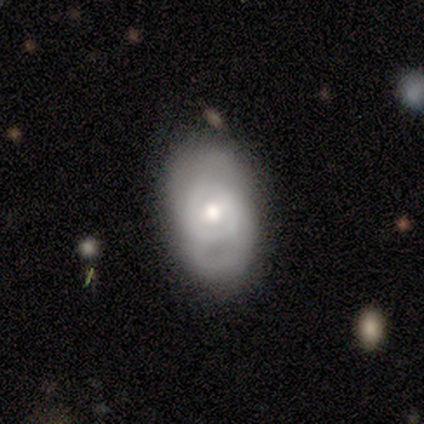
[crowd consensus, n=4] Smooth or featured? featured or disk (75%)
Edge-on disk? no (67%)
Bar? weak (50%, tied with no)
Spiral arms? yes (100%)
Spiral winding? tight (50%, tied with medium)
Spiral arm count? can't tell (100%)
Bulge size? moderate (100%)
Merging? none (75%)